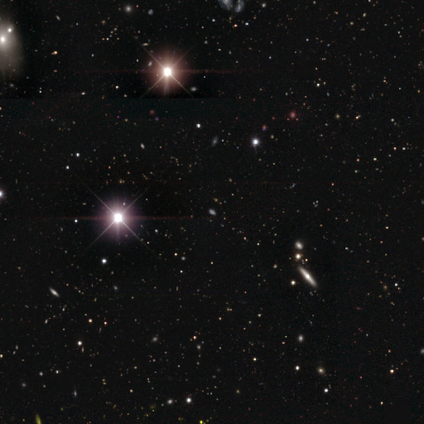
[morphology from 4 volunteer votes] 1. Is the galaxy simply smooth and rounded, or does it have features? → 100% star or artifact, 0% smooth, 0% featured or disk.